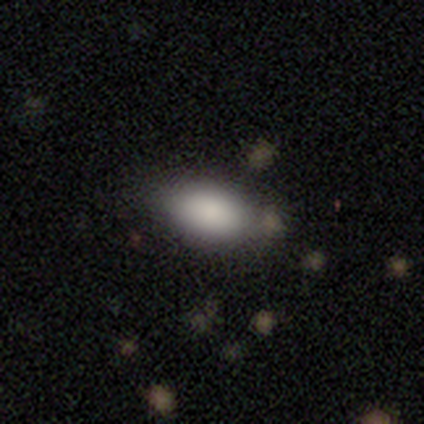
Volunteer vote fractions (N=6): Morphology: type=smooth (100%); roundness=in between (83%); merging=none (50%).